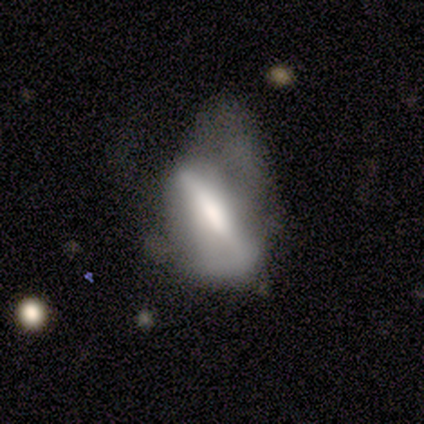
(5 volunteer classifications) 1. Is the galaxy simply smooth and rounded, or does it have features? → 100% featured or disk, 0% smooth, 0% star or artifact.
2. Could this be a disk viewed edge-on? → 80% yes, 20% no.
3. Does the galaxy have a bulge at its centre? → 100% boxy, 0% none, 0% rounded.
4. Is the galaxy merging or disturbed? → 60% major disturbance, 20% none, 20% minor disturbance, 0% merger.